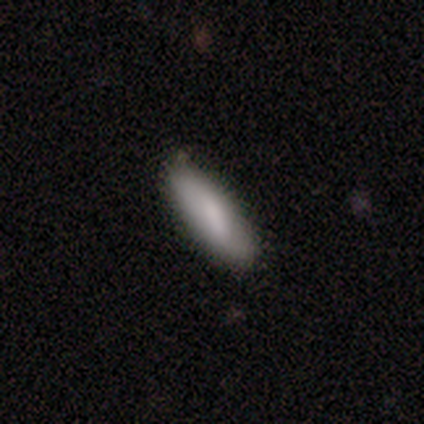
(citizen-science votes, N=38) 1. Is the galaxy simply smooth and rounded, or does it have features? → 79% smooth, 18% featured or disk, 3% star or artifact.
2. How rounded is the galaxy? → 50% in between (tied), 50% cigar-shaped (tied), 0% round.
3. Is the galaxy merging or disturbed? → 78% none, 19% minor disturbance, 3% major disturbance, 0% merger.